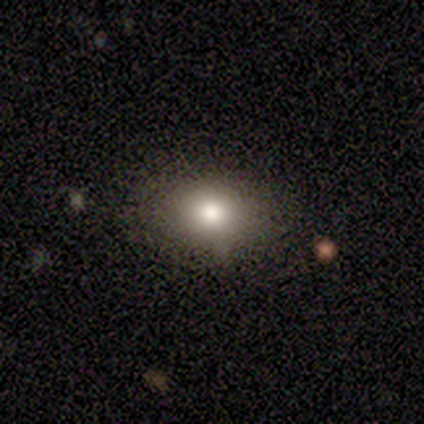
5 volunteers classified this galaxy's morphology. A smooth galaxy with no disk features (60%) that is in between round and cigar-shaped (67%).

Vote fractions:
- Smooth or featured? smooth: 60% / featured or disk: 40% / star or artifact: 0%
- How rounded? in between: 67% / round: 33% / cigar-shaped: 0%
- Merging? none: 100% / minor disturbance: 0% / major disturbance: 0% / merger: 0%